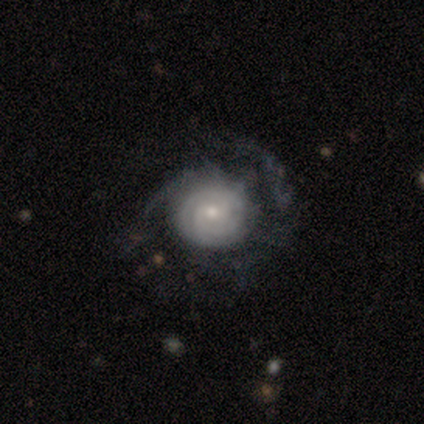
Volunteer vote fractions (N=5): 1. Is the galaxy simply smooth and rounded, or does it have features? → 80% featured or disk, 20% star or artifact, 0% smooth.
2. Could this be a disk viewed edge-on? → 100% no, 0% yes.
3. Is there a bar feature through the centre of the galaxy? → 50% weak (tied), 50% no (tied), 0% strong.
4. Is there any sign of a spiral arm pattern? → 100% yes, 0% no.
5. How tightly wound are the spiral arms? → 75% tight, 25% loose, 0% medium.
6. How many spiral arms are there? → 50% 2 (tied), 50% can't tell (tied), 0% 1, 0% 3, 0% 4, 0% more than 4.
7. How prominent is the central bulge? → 50% small, 25% large, 25% moderate, 0% dominant, 0% none.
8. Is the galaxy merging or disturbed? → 75% none, 25% major disturbance, 0% minor disturbance, 0% merger.